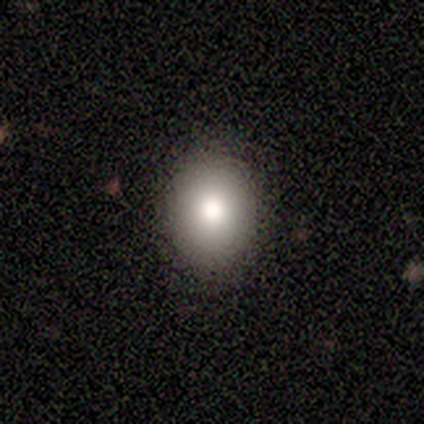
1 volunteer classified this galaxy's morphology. Smooth or featured? 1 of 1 (100%) said smooth. How rounded? 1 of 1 (100%) said in between. Merging? 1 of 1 (100%) said none.